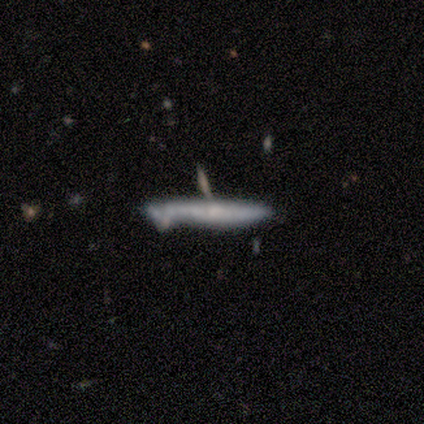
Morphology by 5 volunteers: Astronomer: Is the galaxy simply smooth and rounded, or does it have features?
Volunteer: featured or disk — 60% (runner-up: smooth, 40%).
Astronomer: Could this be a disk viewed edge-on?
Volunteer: yes — 100%.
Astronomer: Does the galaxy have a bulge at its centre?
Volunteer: none — 100%.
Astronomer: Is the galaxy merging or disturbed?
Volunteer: none — 80%.